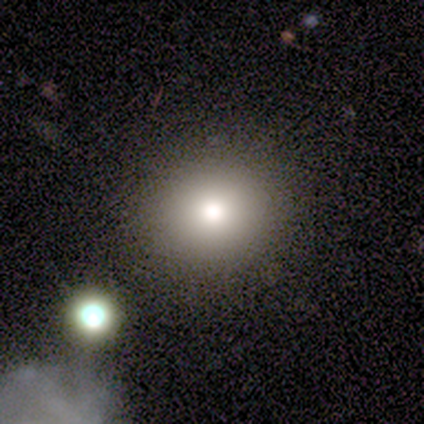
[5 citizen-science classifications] This appears to be a smooth galaxy with no disk features (60%) that is round (100%). Merging: none (100%).